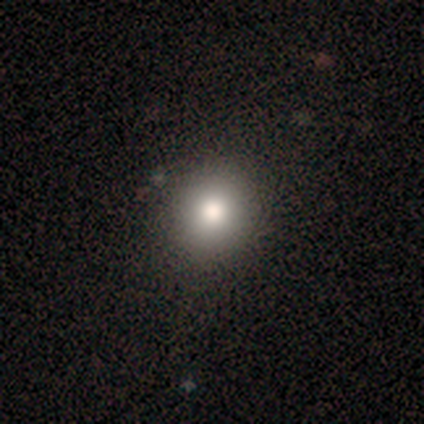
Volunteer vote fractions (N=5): Smooth or featured? 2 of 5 (40%, tied with star or artifact) said smooth. How rounded? 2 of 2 (100%) said round. Merging? 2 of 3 (67%) said none.